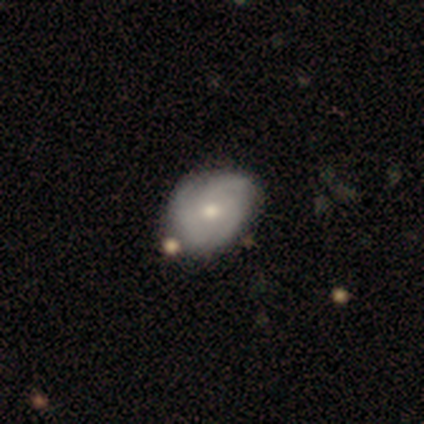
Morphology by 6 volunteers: Smooth or featured? featured or disk (83%)
Edge-on disk? no (100%)
Bar? no (60%)
Spiral arms? yes (80%)
Spiral winding? tight (50%, tied with medium)
Spiral arm count? 3 (50%)
Bulge size? moderate (60%)
Merging? none (100%)